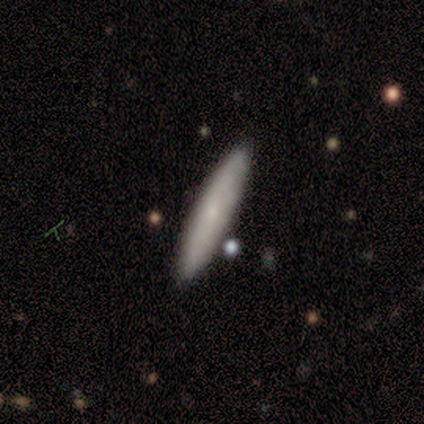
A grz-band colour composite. It shows a smooth galaxy with no disk features (75%) that is cigar-shaped (100%). Merging: none (100%).